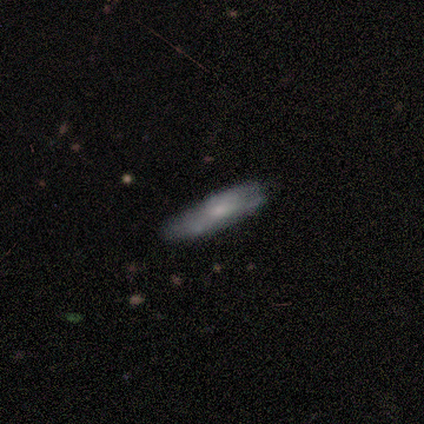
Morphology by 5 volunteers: Smooth or featured?
  - smooth: 60% *
  - featured or disk: 40%
  - star or artifact: 0%
How rounded?
  - cigar-shaped: 67% *
  - in between: 33%
  - round: 0%
Merging?
  - none: 80% *
  - minor disturbance: 20%
  - major disturbance: 0%
  - merger: 0%